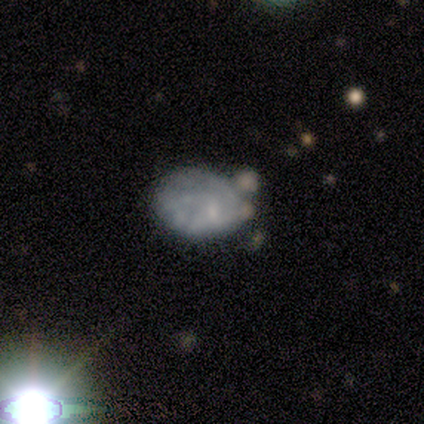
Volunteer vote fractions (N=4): Smooth or featured?
  - smooth: 50% * (tied)
  - featured or disk: 50% * (tied)
  - star or artifact: 0%
How rounded?
  - in between: 100% *
  - round: 0%
  - cigar-shaped: 0%
Merging?
  - none: 50% * (tied)
  - minor disturbance: 50% * (tied)
  - major disturbance: 0%
  - merger: 0%